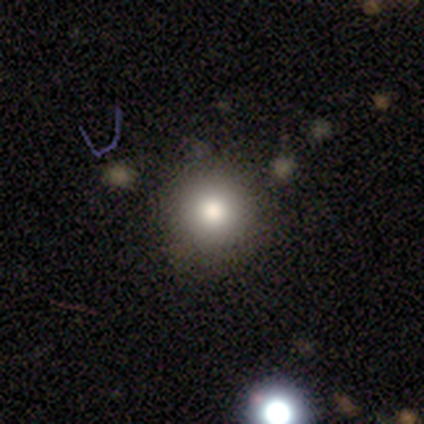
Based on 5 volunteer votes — Smooth or featured?
  - smooth: 80% *
  - star or artifact: 20%
  - featured or disk: 0%
How rounded?
  - round: 100% *
  - in between: 0%
  - cigar-shaped: 0%
Merging?
  - none: 75% *
  - merger: 25%
  - minor disturbance: 0%
  - major disturbance: 0%